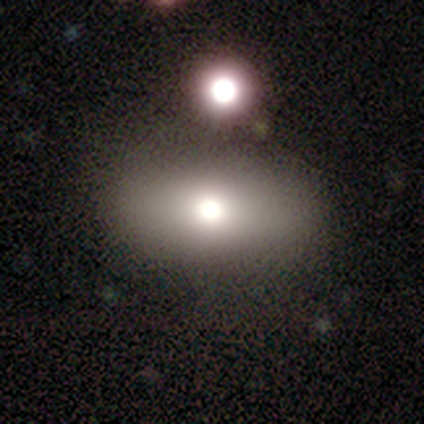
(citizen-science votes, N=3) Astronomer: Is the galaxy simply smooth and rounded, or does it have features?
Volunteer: smooth — 33%, tied with featured or disk and star or artifact at 33%.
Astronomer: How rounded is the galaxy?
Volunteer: in between — 100%.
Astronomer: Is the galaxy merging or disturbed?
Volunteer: none — 100%.